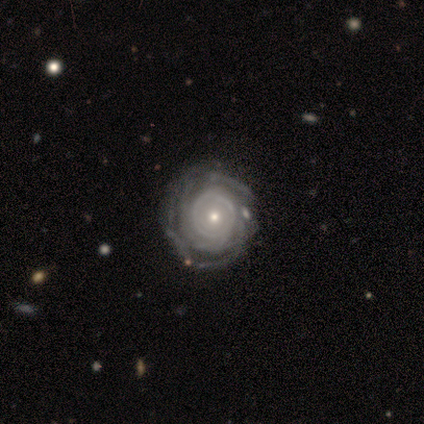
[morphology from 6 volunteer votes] smooth-or-featured: featured or disk: 100% | smooth: 0% | star or artifact: 0%
  disk-edge-on: no: 100% | yes: 0%
    bar: no: 100% | strong: 0% | weak: 0%
    has-spiral-arms: yes: 83% | no: 17%
      spiral-winding: tight: 100% | medium: 0% | loose: 0%
      spiral-arm-count: more than 4: 40% (tied) | can't tell: 40% (tied) | 1: 20% | 2: 0% | 3: 0% | 4: 0%
    bulge-size: small: 67% | moderate: 33% | dominant: 0% | large: 0% | none: 0%
  merging: none: 100% | minor disturbance: 0% | major disturbance: 0% | merger: 0%